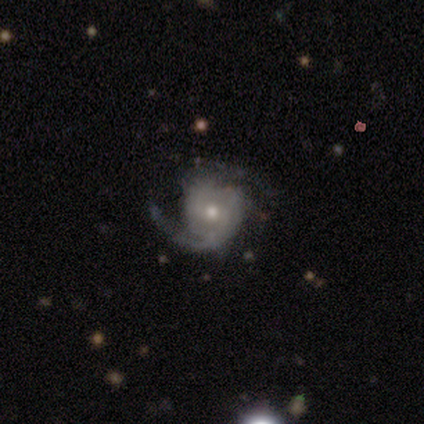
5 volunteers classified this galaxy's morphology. Volunteers were most divided on "bulge size" (2-way tie): moderate: 50%, small: 50%, dominant: 0%, large: 0%, none: 0%. More confident: edge-on disk — no (100%); spiral arms — yes (100%); smooth or featured — featured or disk (80%); bar — no (75%); spiral arm count — 2 (75%); merging — none (60%); spiral winding — medium (50%).